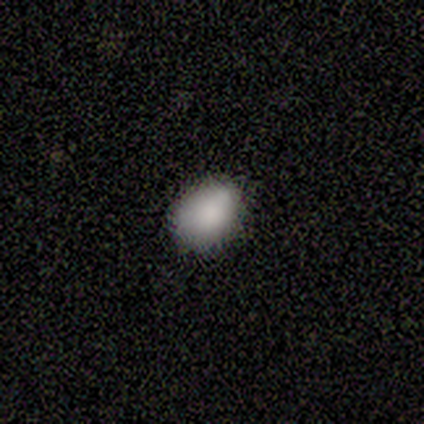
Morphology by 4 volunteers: Smooth or featured?
  - smooth: 100% *
  - featured or disk: 0%
  - star or artifact: 0%
How rounded?
  - round: 50% * (tied)
  - in between: 50% * (tied)
  - cigar-shaped: 0%
Merging?
  - none: 75% *
  - minor disturbance: 25%
  - major disturbance: 0%
  - merger: 0%